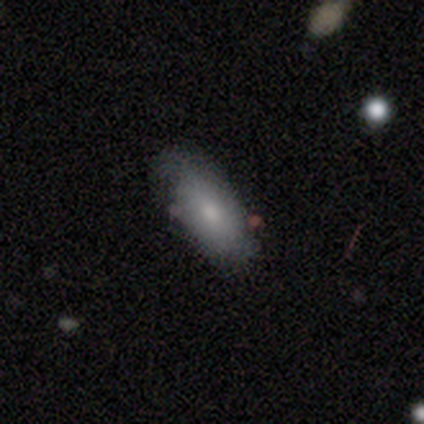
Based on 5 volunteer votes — Smooth or featured? 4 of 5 (80%) said smooth. How rounded? 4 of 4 (100%) said in between. Merging? 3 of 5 (60%) said none.